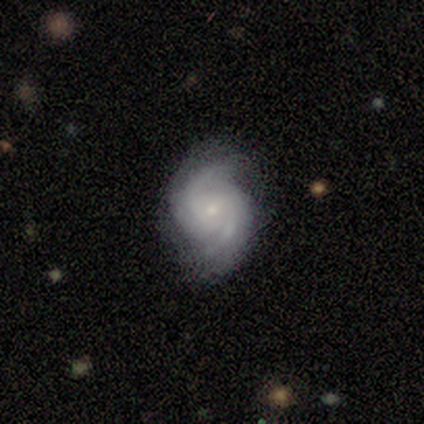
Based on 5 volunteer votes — This is clearly a featured or disk galaxy (100%). It is clearly not viewed edge-on (100%). Bar: likely no (60%). Spiral arm pattern: clearly yes (100%). Spiral arm count: likely 2 (60%). Spiral winding: marginally tight (40%, tied with medium). Central bulge: likely small (60%). Merging: likely none (60%).